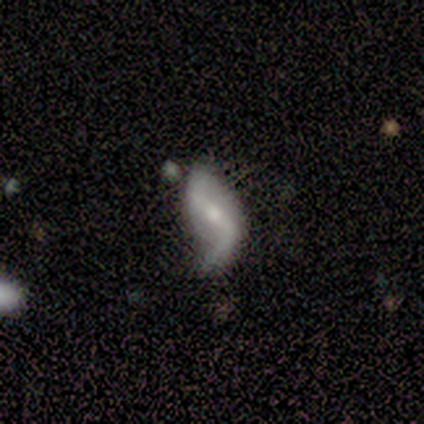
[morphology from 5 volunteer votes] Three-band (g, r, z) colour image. It shows a featured or disk galaxy (80%) with a strong bar (67%), 2 (100%) loose (100%) spiral arms (100%) and a moderate central bulge (67%). Merging: major disturbance (60%).